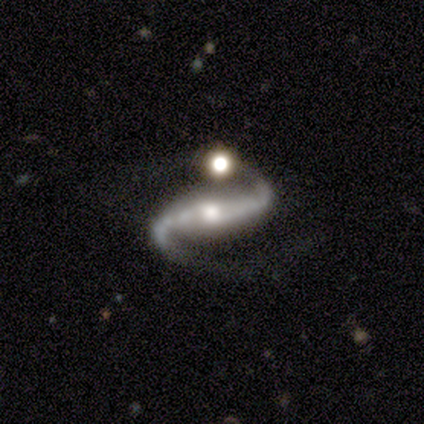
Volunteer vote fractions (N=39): Volunteers were most divided on "merging": none: 57%, merger: 23%, minor disturbance: 11%, major disturbance: 9%. More confident: spiral arms — yes (100%); spiral arm count — 2 (97%); smooth or featured — featured or disk (90%); edge-on disk — no (89%); spiral winding — loose (74%); bulge size — moderate (71%); bar — strong (65%).